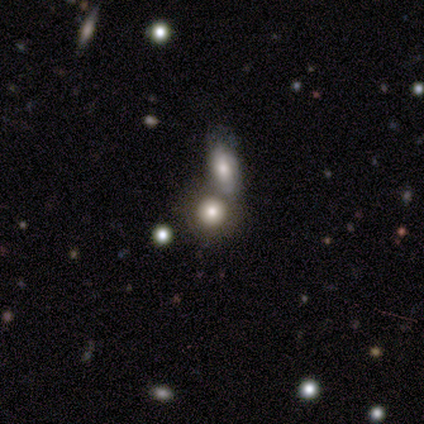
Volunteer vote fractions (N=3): A smooth galaxy with no disk features (67%) that is round (50%, tied with in between). Merging: minor disturbance (50%, tied with merger).